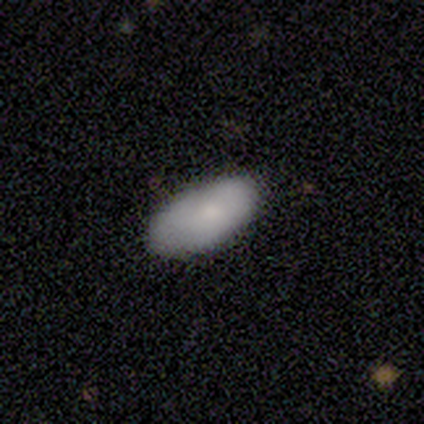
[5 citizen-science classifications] Smooth or featured? smooth (100%)
How rounded? in between (80%)
Merging? none (80%)